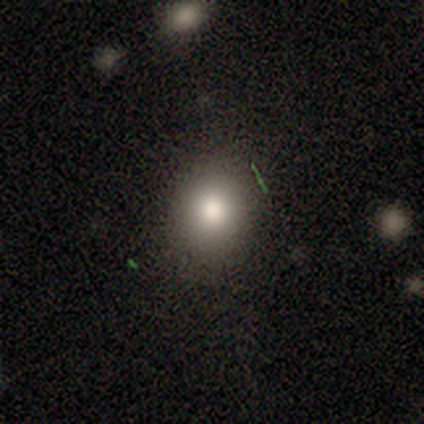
Smooth or featured? 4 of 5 (80%) said smooth. How rounded? 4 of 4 (100%) said round. Merging? 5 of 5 (100%) said none.